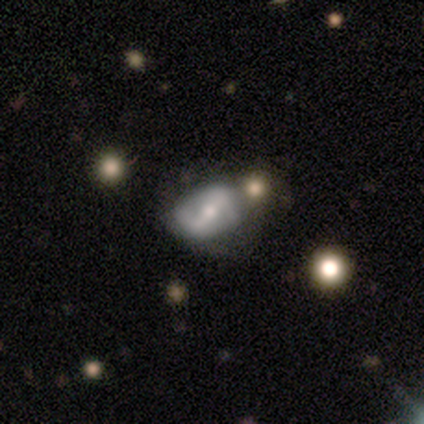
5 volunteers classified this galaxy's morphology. type=featured or disk (60%); edge-on=no (100%); bar=strong (100%); spiral arms=yes (100%); winding=tight (33%, tied with medium and loose); arm count=2 (100%); bulge=moderate (100%); merging=none (100%).